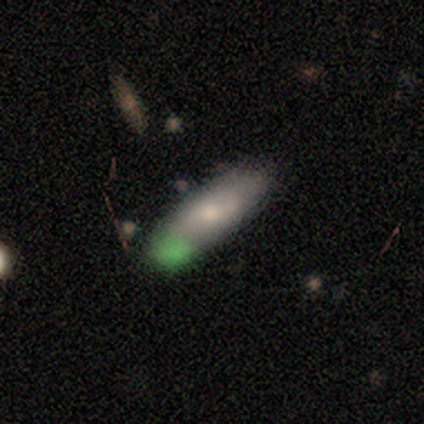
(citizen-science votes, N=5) Smooth or featured: featured or disk — 60% (smooth — 40%)
Edge-on disk: no — 100%
Bar: no — 67% (weak — 33%)
Spiral arms: yes — 67% (no — 33%)
Spiral winding: loose — 100%
Spiral arm count: can't tell — 100%
Bulge size: small — 67% (moderate — 33%)
Merging: none — 60% (merger — 40%)